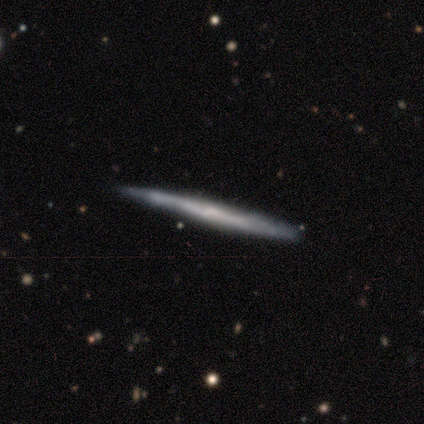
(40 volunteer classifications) smooth_or_featured: featured or disk (p=0.68) [alt: smooth p=0.28]
disk_edge_on: yes (p=0.93) [alt: no p=0.07]
edge_on_bulge: none (p=0.76) [alt: rounded p=0.16]
merging: none (p=0.63) [alt: minor disturbance p=0.34]